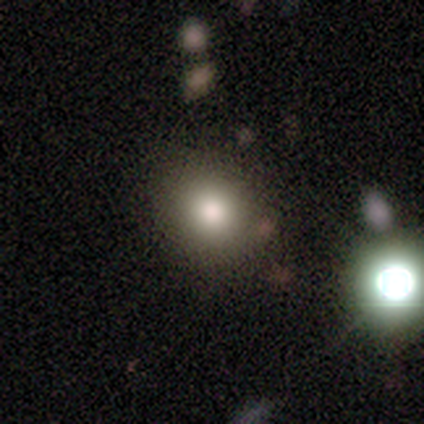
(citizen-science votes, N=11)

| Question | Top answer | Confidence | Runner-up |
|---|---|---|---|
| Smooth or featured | smooth | 82% | featured or disk (9%) |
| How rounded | round | 100% | — |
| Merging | none | 80% | minor disturbance (10%) |